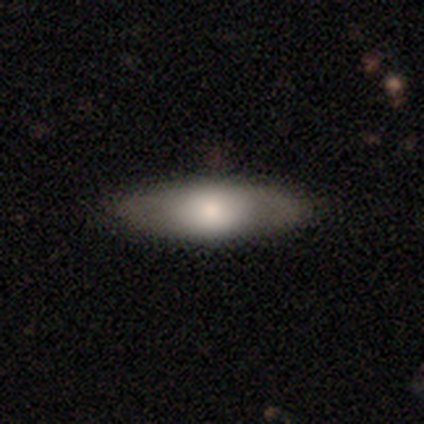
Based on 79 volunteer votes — Smooth or featured: smooth — 56% (featured or disk — 35%)
How rounded: in between — 66% (cigar-shaped — 34%)
Merging: none — 42% (minor disturbance — 4%)